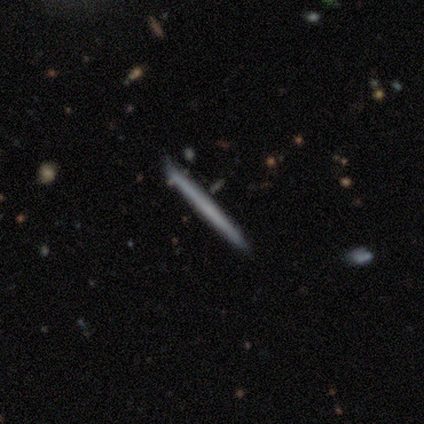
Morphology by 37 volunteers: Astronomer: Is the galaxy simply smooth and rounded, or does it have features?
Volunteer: featured or disk — 54% (runner-up: smooth, 41%).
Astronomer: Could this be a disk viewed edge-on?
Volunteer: yes — 100%.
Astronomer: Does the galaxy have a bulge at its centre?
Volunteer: none — 100%.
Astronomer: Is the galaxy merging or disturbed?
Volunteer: none — 89%.